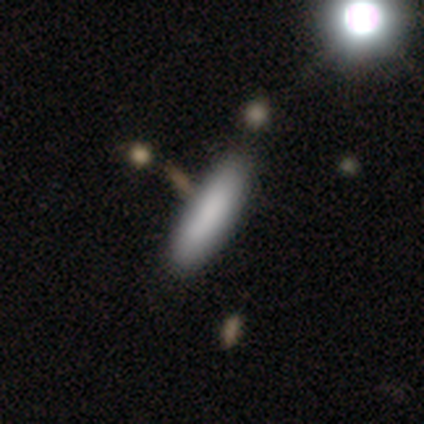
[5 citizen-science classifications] Volunteers were most divided on "smooth or featured": smooth: 80%, featured or disk: 20%, star or artifact: 0%. More confident: how rounded — cigar-shaped (100%); merging — none (80%).